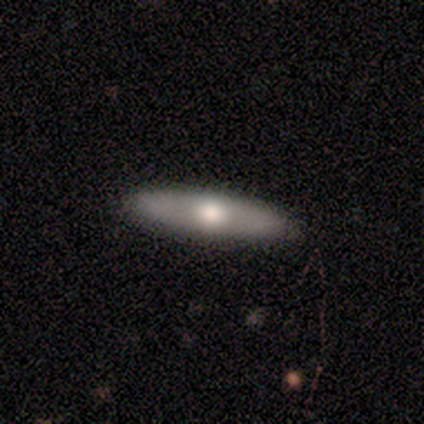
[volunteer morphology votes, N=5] Smooth or featured? featured or disk (60%)
Edge-on disk? yes (100%)
Edge-on bulge? rounded (100%)
Merging? none (75%)